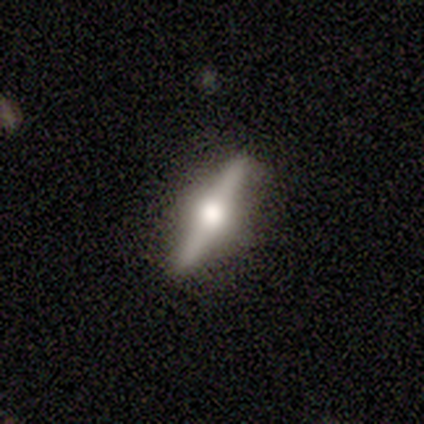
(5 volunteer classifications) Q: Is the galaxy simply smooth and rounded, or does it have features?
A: featured or disk — 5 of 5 (100%).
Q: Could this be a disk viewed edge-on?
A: yes — 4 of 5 (80%).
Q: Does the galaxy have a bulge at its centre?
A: rounded — 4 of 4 (100%).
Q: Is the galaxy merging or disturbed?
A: none — 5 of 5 (100%).